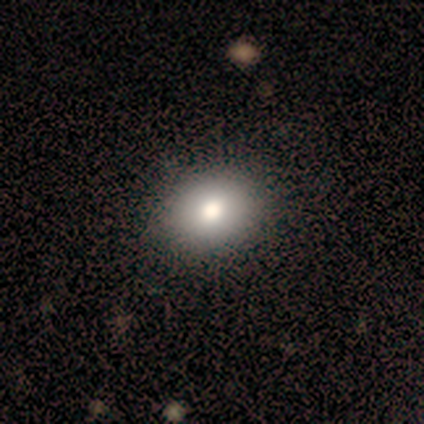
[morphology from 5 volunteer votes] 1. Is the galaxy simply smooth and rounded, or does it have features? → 80% smooth, 20% star or artifact, 0% featured or disk.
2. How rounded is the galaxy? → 50% round (tied), 50% in between (tied), 0% cigar-shaped.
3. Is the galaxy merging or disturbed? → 100% none, 0% minor disturbance, 0% major disturbance, 0% merger.